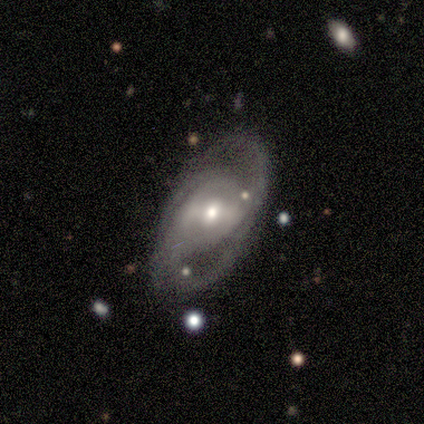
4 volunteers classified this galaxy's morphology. type=featured or disk (100%); edge-on=no (100%); bar=weak (50%, tied with no); spiral arms=yes (50%, tied with no); winding=tight (50%, tied with loose); arm count=1 (50%, tied with 2); bulge=moderate (50%); merging=none (75%).